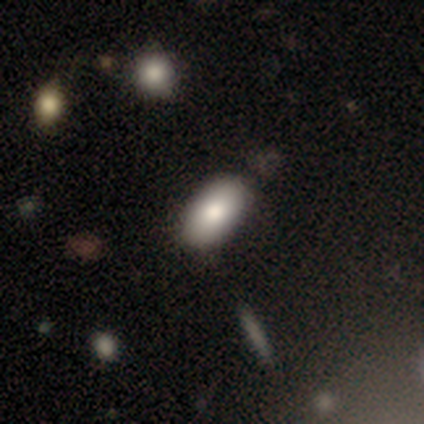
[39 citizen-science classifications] Smooth or featured: smooth — 87% (featured or disk — 13%)
How rounded: in between — 91% (cigar-shaped — 6%)
Merging: none — 69% (minor disturbance — 8%)